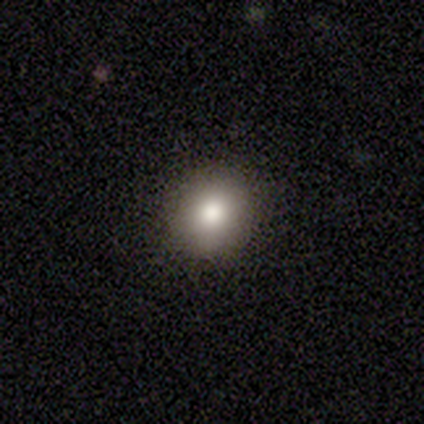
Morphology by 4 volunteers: Smooth or featured? 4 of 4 (100%) said smooth. How rounded? 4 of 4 (100%) said round. Merging? 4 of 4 (100%) said none.